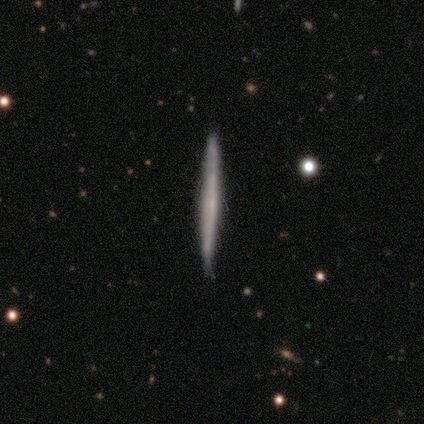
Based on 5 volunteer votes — Smooth or featured? 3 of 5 (60%) said featured or disk. Edge-on disk? 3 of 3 (100%) said yes. Edge-on bulge? 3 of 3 (100%) said none. Merging? 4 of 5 (80%) said none.